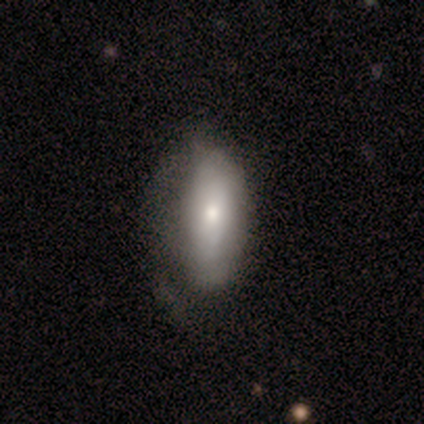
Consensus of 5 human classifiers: Q: Smooth or featured?
A: smooth (60%); runner-up: featured or disk (40%)
Q: How rounded?
A: in between (100%)
Q: Merging?
A: minor disturbance (80%); runner-up: none (20%)